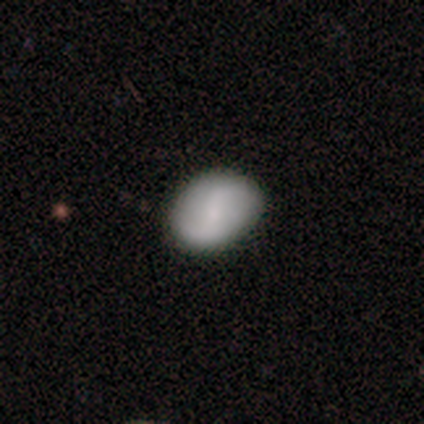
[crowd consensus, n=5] Volunteers were most divided on "smooth or featured": smooth: 60%, featured or disk: 40%, star or artifact: 0%. More confident: merging — none (80%); how rounded — in between (67%).